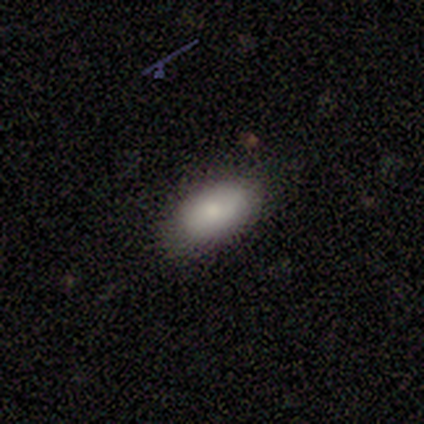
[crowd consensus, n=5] This is clearly a smooth galaxy (80%). How rounded: clearly in between (100%). Merging: clearly none (100%).